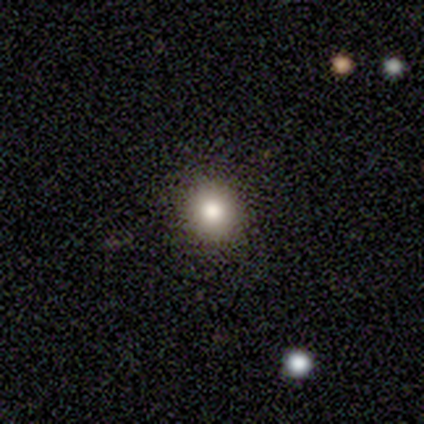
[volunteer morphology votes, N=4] Smooth or featured? smooth (100%)
How rounded? round (100%)
Merging? none (100%)